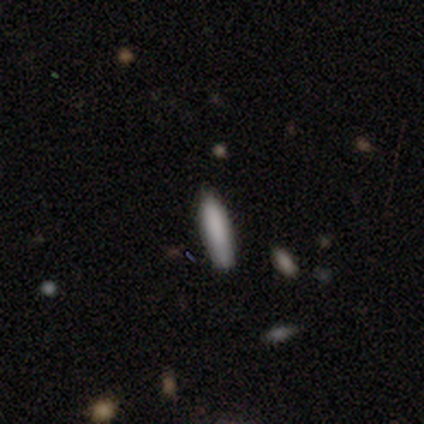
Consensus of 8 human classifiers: This is clearly a smooth galaxy (100%). How rounded: likely cigar-shaped (75%). Merging: clearly none (100%).